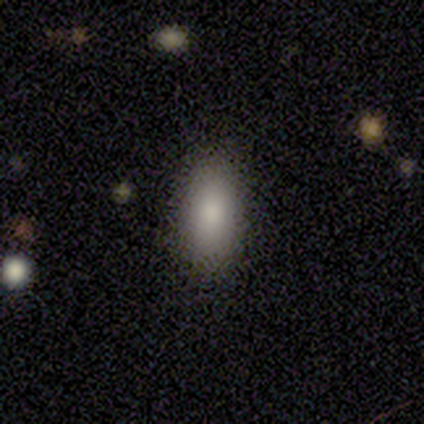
smooth-or-featured: smooth: 60% | featured or disk: 40% | star or artifact: 0%
  how-rounded: in between: 67% | cigar-shaped: 33% | round: 0%
  merging: none: 80% | minor disturbance: 20% | major disturbance: 0% | merger: 0%